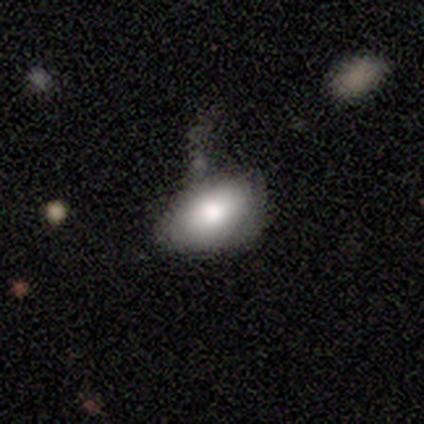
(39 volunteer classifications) A smooth galaxy with no disk features (82%) that is in between round and cigar-shaped (94%). Merging: none (46%).